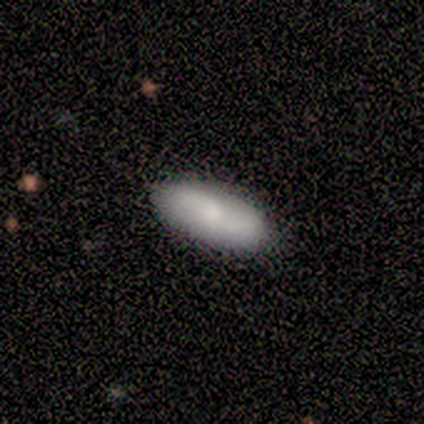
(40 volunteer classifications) smooth-or-featured: smooth: 55% | featured or disk: 30% | star or artifact: 15%
  how-rounded: in between: 86% | cigar-shaped: 14% | round: 0%
  merging: none: 74% | minor disturbance: 12% | major disturbance: 12% | merger: 3%